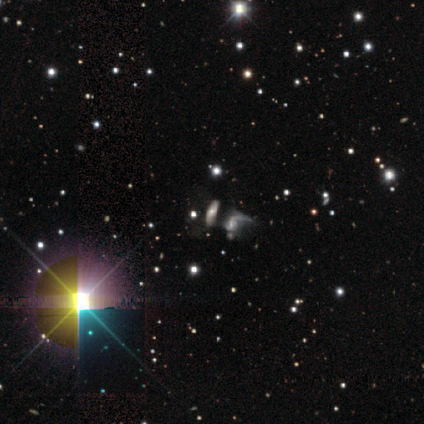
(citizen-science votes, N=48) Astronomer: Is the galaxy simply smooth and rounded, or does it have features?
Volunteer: featured or disk — 42% (runner-up: star or artifact, 35%).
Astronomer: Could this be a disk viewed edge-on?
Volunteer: no — 90%.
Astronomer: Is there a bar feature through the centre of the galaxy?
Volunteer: no — 56%.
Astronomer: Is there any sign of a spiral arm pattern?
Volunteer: yes — 56% (runner-up: no, 44%).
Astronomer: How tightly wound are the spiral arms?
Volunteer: loose — 50% (runner-up: medium, 40%).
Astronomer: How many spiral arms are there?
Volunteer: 2 — 70%.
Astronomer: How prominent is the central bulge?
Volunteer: moderate — 56% (runner-up: small, 44%).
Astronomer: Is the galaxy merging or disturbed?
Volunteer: none — 26%, tied with minor disturbance and merger at 26%.